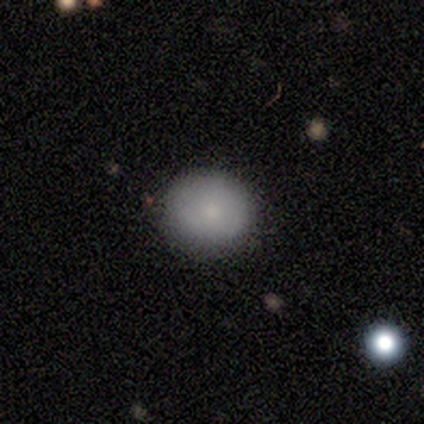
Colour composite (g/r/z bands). It shows a smooth galaxy with no disk features (75%) that is round (67%). Merging: none (100%).